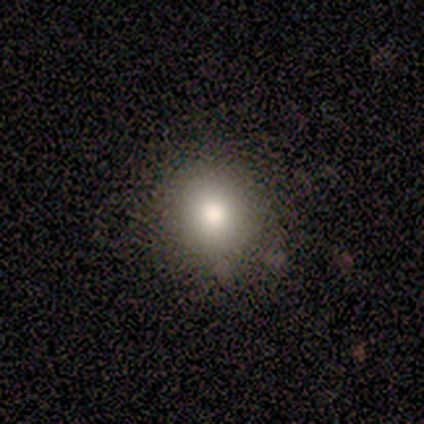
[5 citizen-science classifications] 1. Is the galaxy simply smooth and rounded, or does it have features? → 60% smooth, 20% featured or disk, 20% star or artifact.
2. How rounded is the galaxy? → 100% round, 0% in between, 0% cigar-shaped.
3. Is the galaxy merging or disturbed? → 75% none, 25% minor disturbance, 0% major disturbance, 0% merger.